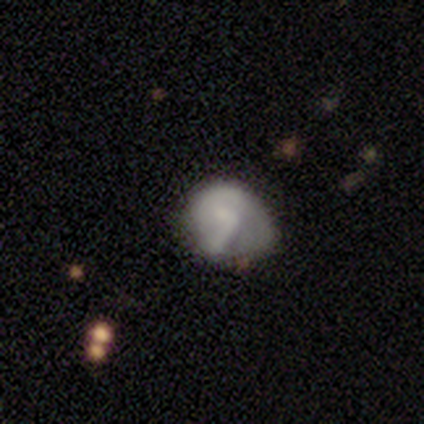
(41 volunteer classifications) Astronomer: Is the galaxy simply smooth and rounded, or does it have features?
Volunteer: smooth — 59%.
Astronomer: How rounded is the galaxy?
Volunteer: round — 50% (runner-up: in between, 42%).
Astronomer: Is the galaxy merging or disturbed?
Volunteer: minor disturbance — 24% (runner-up: none, 16%).